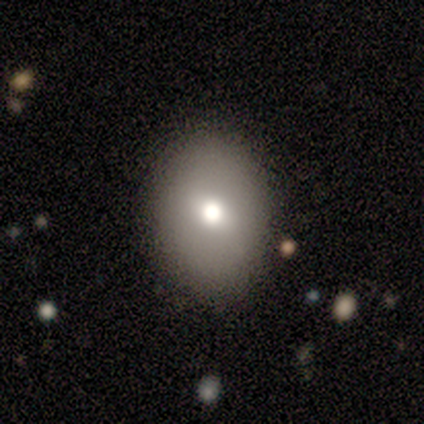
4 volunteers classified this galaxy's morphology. Q: Smooth or featured?
A: smooth (75%); runner-up: featured or disk (25%)
Q: How rounded?
A: round (67%); runner-up: in between (33%)
Q: Merging?
A: none (75%); runner-up: major disturbance (25%)